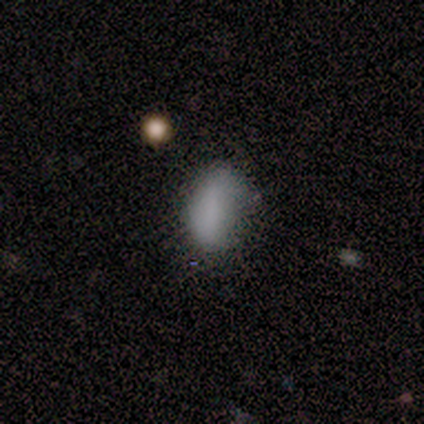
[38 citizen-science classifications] This appears to be a smooth galaxy with no disk features (95%) that is in between round and cigar-shaped (86%). Merging: none (68%).